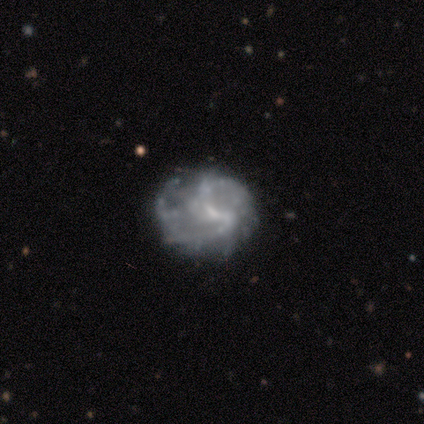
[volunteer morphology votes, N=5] smooth-or-featured: featured or disk: 80% | smooth: 20% | star or artifact: 0%
  disk-edge-on: no: 100% | yes: 0%
    bar: no: 50% | strong: 25% | weak: 25%
    has-spiral-arms: no: 75% | yes: 25%
    bulge-size: small: 50% | moderate: 25% | none: 25% | dominant: 0% | large: 0%
  merging: none: 60% | minor disturbance: 20% | major disturbance: 20% | merger: 0%